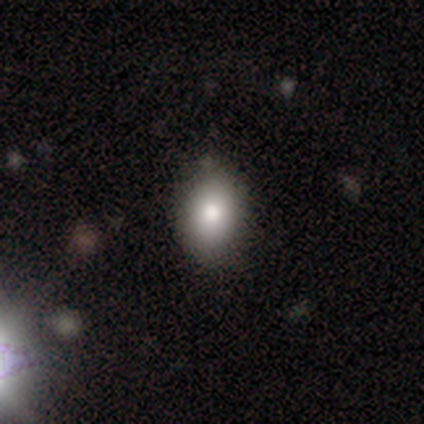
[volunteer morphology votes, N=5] smooth-or-featured: smooth: 80% | star or artifact: 20% | featured or disk: 0%
  how-rounded: round: 75% | in between: 25% | cigar-shaped: 0%
  merging: none: 100% | minor disturbance: 0% | major disturbance: 0% | merger: 0%